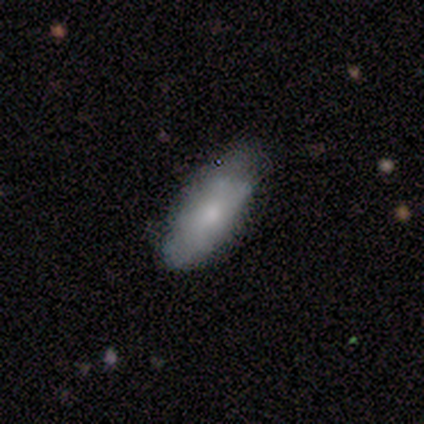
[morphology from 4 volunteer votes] This is likely a smooth galaxy (75%). How rounded: clearly in between (100%). Merging: likely none (75%).